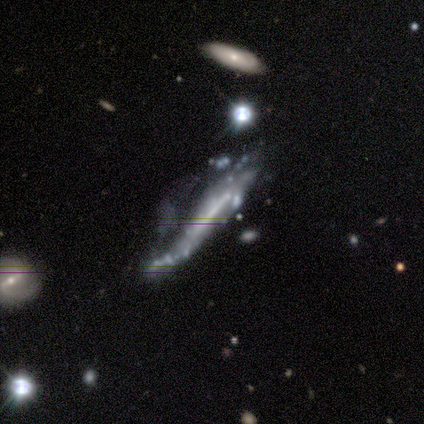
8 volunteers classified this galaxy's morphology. Overall: featured or disk (75%). Edge-on disk: no (67%; yes 33%). Bar: weak (50%; strong 25%). Spiral arms: yes (50%, tied with no). Spiral arm count: 2 (100%). Spiral winding: medium (50%, tied with loose). Bulge size: none (75%). Merging: major disturbance (71%).